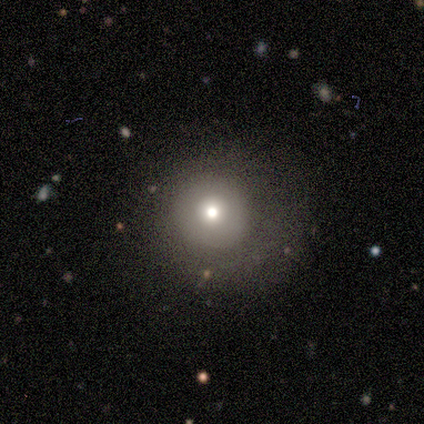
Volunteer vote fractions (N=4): A smooth galaxy with no disk features (75%) that is round (100%). Merging: none (75%).